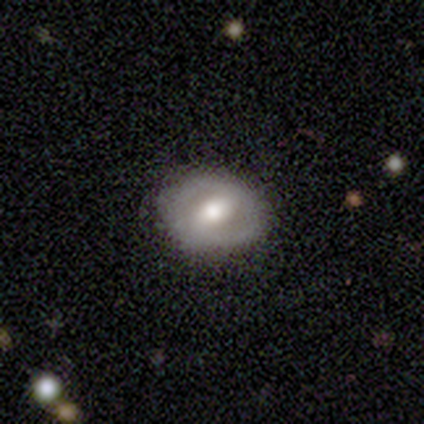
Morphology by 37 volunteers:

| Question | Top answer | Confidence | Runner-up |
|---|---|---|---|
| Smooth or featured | featured or disk | 57% | smooth (38%) |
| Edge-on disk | no | 86% | yes (14%) |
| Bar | weak | 61% | no (22%) |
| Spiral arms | yes | 50% | tied: no (50%) |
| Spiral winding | medium | 44% | loose (33%) |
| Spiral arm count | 2 | 78% | 1 (22%) |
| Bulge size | moderate | 67% | large (33%) |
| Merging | none | 91% | minor disturbance (6%) |